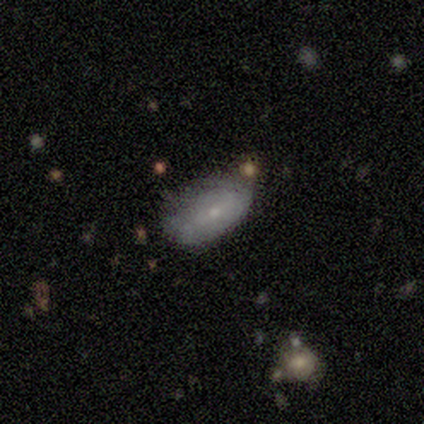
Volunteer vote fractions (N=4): This appears to be a smooth galaxy with no disk features (50%, tied with featured or disk) that is in between round and cigar-shaped (100%). Merging: none (50%).